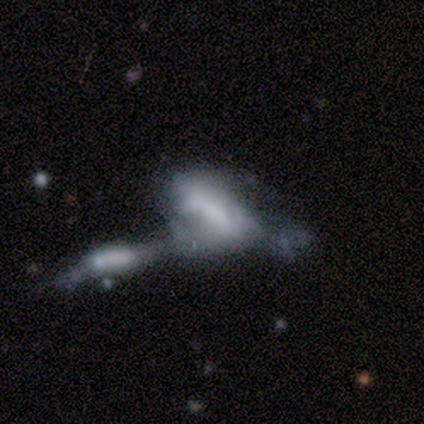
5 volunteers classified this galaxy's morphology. This is marginally a smooth galaxy (40%, tied with star or artifact). How rounded: clearly in between (100%). Merging: likely merger (67%).